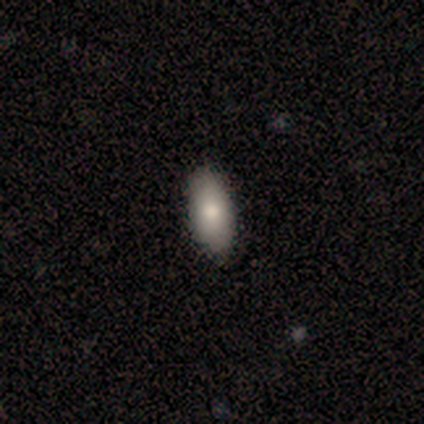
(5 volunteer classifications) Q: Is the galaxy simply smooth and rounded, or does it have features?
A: smooth — 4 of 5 (80%).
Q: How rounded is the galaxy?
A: in between — 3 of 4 (75%).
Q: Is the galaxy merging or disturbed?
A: none — 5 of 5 (100%).